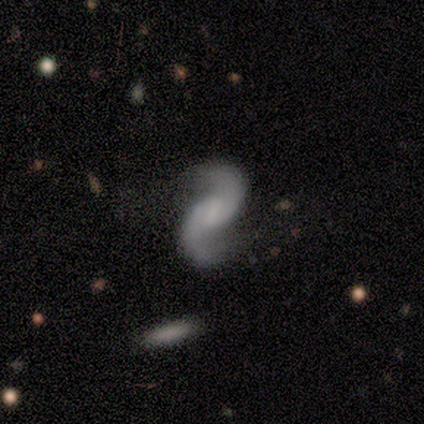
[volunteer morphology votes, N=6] Smooth or featured: featured or disk — 100%
Edge-on disk: no — 100%
Bar: weak — 67% (no — 33%)
Spiral arms: yes — 100%
Spiral winding: loose — 67% (medium — 33%)
Spiral arm count: 2 — 100%
Bulge size: none — 67% (large — 17%)
Merging: none — 83% (major disturbance — 17%)